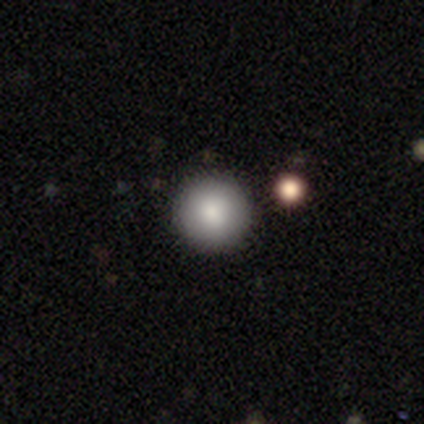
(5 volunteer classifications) Smooth or featured?
  - smooth: 60% *
  - star or artifact: 40%
  - featured or disk: 0%
How rounded?
  - round: 67% *
  - in between: 33%
  - cigar-shaped: 0%
Merging?
  - none: 67% *
  - minor disturbance: 33%
  - major disturbance: 0%
  - merger: 0%